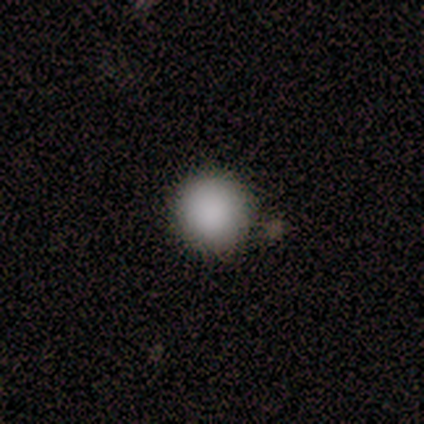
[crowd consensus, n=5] Overall: smooth (100%). How rounded: round (100%). Merging: none (100%).